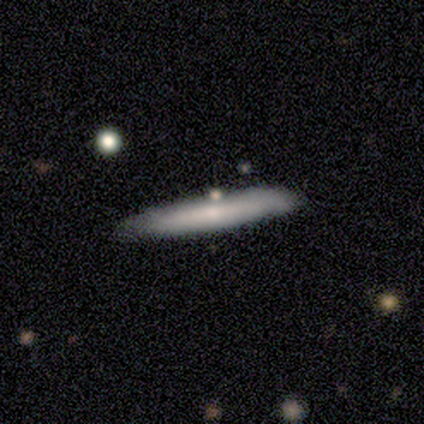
A smooth galaxy with no disk features (60%) that is cigar-shaped (100%).

Vote fractions:
- Smooth or featured? smooth: 60% / featured or disk: 40% / star or artifact: 0%
- How rounded? cigar-shaped: 100% / round: 0% / in between: 0%
- Merging? none: 80% / major disturbance: 20% / minor disturbance: 0% / merger: 0%